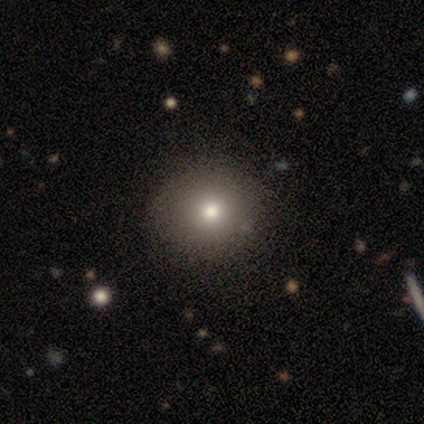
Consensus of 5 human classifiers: This appears to be a smooth galaxy with no disk features (100%) that is round (100%). Merging: none (100%).